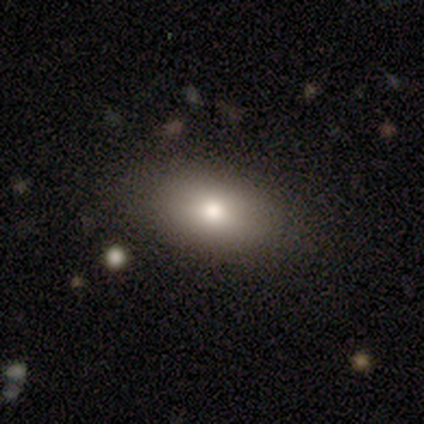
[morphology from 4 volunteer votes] This appears to be a smooth galaxy with no disk features (75%) that is in between round and cigar-shaped (67%). Merging: none (100%).